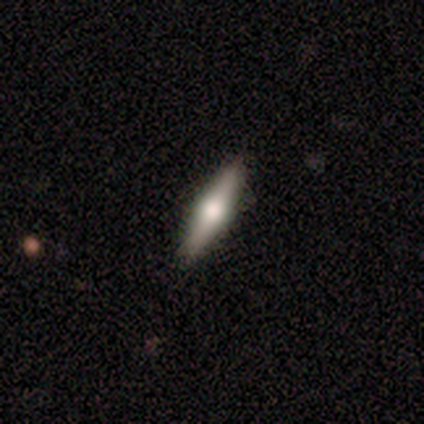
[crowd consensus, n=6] A smooth galaxy with no disk features (67%) that is cigar-shaped (100%). Merging: none (83%).